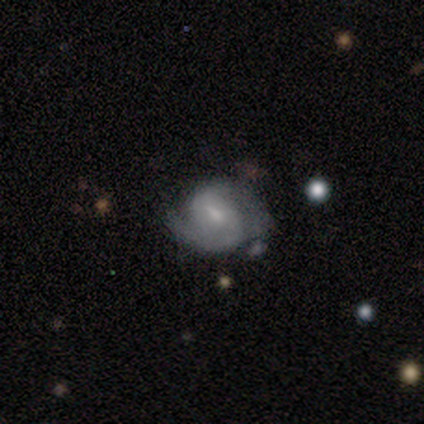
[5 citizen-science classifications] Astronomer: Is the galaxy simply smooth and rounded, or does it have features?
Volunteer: featured or disk — 100%.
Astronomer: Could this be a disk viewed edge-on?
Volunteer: no — 100%.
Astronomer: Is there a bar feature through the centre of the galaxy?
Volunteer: weak — 40%, tied with no at 40%.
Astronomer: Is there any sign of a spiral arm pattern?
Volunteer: yes — 100%.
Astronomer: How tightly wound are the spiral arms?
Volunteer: tight — 40%, tied with medium at 40%.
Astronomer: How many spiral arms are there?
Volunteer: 2 — 100%.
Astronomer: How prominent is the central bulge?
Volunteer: small — 60% (runner-up: moderate, 40%).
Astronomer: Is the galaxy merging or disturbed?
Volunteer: none — 100%.